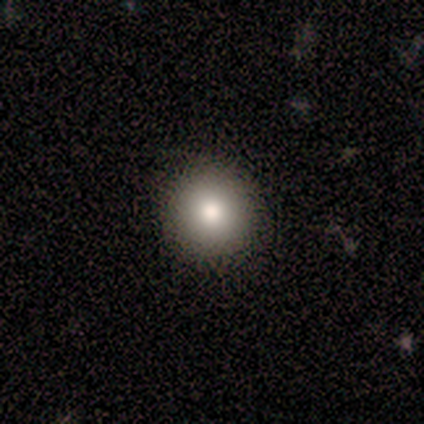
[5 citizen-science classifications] This is clearly a smooth galaxy (80%). How rounded: clearly round (100%). Merging: clearly none (100%).